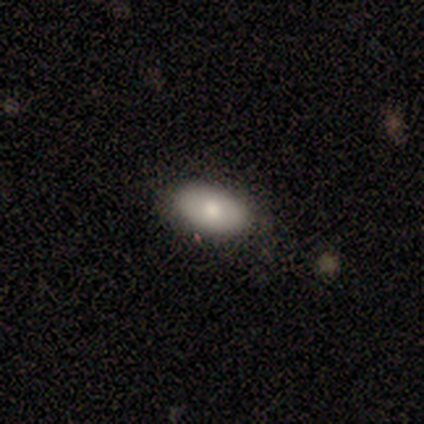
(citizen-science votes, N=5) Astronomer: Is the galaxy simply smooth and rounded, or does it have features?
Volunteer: smooth — 80%.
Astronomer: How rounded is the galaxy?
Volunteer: in between — 75%.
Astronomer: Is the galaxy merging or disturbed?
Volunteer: none — 100%.